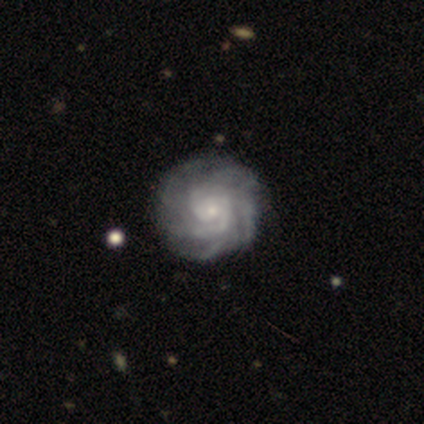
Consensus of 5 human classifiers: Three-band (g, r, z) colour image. It shows a featured or disk galaxy (100%) with no bar (75%), 3 (25%, tied with 4, more than 4 and can't tell) tight (100%) spiral arms (100%) and a moderate central bulge (50%, tied with small). Merging: none (100%).